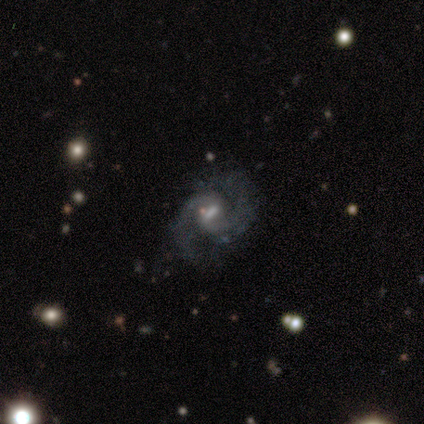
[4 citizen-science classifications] A featured or disk galaxy (100%) with a weak bar (75%), 2 (75%) medium (75%) spiral arms (100%) and a moderate central bulge (75%).

Vote fractions:
- Smooth or featured? featured or disk: 100% / smooth: 0% / star or artifact: 0%
- Edge-on disk? no: 100% / yes: 0%
- Bar? weak: 75% / strong: 25% / no: 0%
- Spiral arms? yes: 100% / no: 0%
- Spiral winding? medium: 75% / loose: 25% / tight: 0%
- Spiral arm count? 2: 75% / 3: 25% / 1: 0% / 4: 0% / more than 4: 0% / can't tell: 0%
- Bulge size? moderate: 75% / large: 25% / dominant: 0% / small: 0% / none: 0%
- Merging? none: 50% (tied) / major disturbance: 50% (tied) / minor disturbance: 0% / merger: 0%